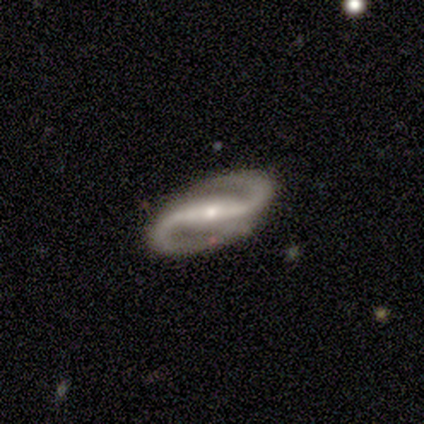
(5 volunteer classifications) smooth_or_featured: featured or disk (p=1.00)
disk_edge_on: no (p=1.00)
bar: strong (p=1.00)
has_spiral_arms: yes (p=1.00)
spiral_winding: tight (p=0.60) [alt: medium p=0.20]
spiral_arm_count: 2 (p=1.00)
bulge_size: moderate (p=0.60) [alt: dominant p=0.20]
merging: none (p=1.00)